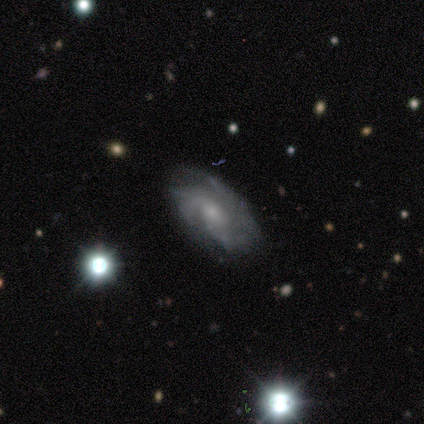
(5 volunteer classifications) Overall: featured or disk (80%). Edge-on disk: no (100%). Bar: no (100%). Spiral arms: yes (100%). Spiral arm count: can't tell (50%; 2 25%). Spiral winding: tight (75%). Bulge size: small (100%). Merging: none (80%).